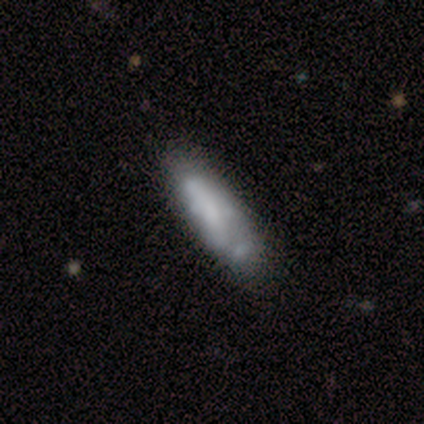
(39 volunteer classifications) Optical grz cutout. It shows a smooth galaxy with no disk features (51%) that is cigar-shaped (60%). Merging: minor disturbance (26%).